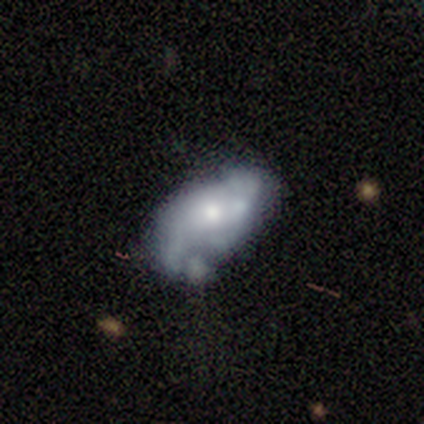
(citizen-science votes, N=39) This is likely a featured or disk galaxy (69%). It is clearly not viewed edge-on (96%). Bar: possibly no (58%). Spiral arm pattern: likely yes (62%). Spiral arm count: marginally 2 (44%, tied with can't tell). Spiral winding: possibly loose (56%). Central bulge: possibly moderate (50%). Merging: marginally minor disturbance (35%).